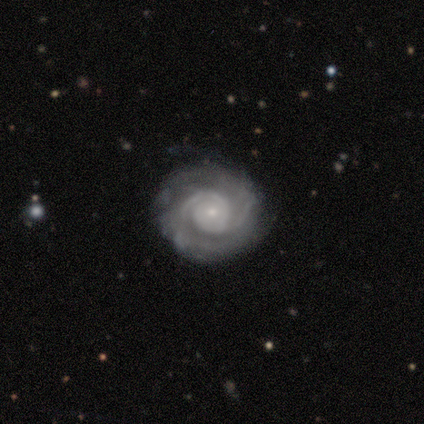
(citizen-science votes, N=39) Overall: featured or disk (92%). Edge-on disk: no (100%). Bar: no (81%). Spiral arms: yes (97%). Spiral arm count: 2 (69%). Spiral winding: tight (77%). Bulge size: small (81%). Merging: none (78%).